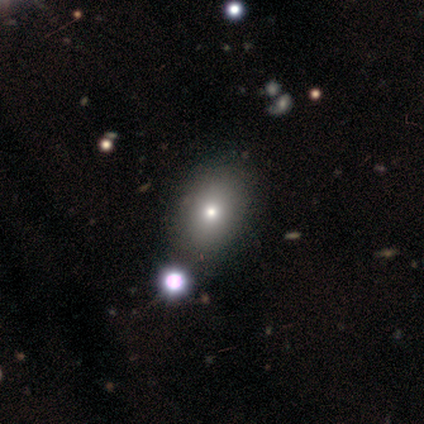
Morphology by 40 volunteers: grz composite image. It shows a smooth galaxy with no disk features (82%) that is in between round and cigar-shaped (67%). Merging: none (46%).